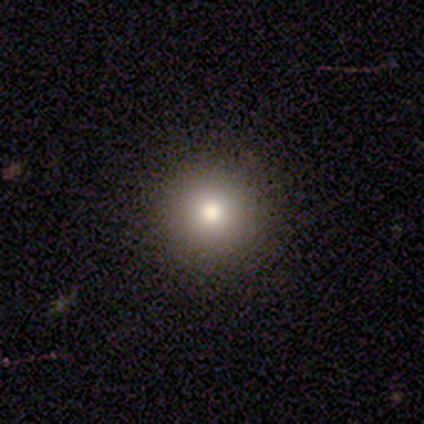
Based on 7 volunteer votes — Morphology: type=smooth (71%); roundness=round (100%); merging=none (100%).